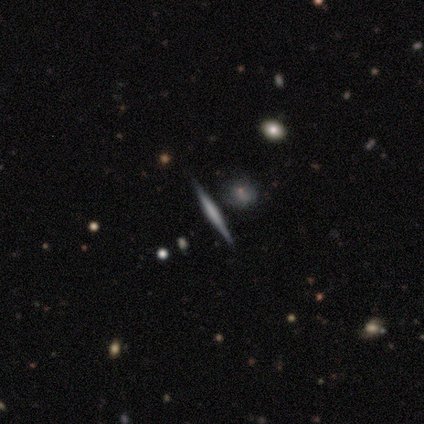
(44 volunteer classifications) Volunteers were most divided on "edge-on bulge": boxy: 41%, none: 31%, rounded: 28%. More confident: edge-on disk — yes (100%); merging — none (88%); smooth or featured — featured or disk (66%).